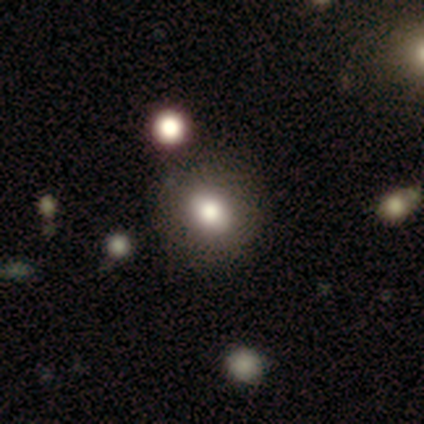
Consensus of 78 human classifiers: Smooth or featured? smooth (76%)
How rounded? round (81%)
Merging? none (41%)